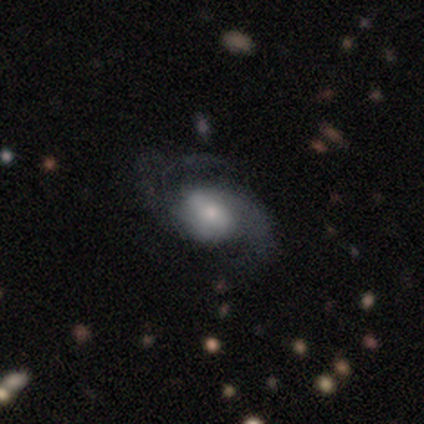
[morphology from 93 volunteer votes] Smooth or featured: featured or disk — 81% (smooth — 15%)
Edge-on disk: no — 97% (yes — 3%)
Bar: weak — 42% (no — 36%)
Spiral arms: yes — 93% (no — 7%)
Spiral winding: medium — 57% (loose — 34%)
Spiral arm count: 2 — 76% (3 — 13%)
Bulge size: small — 42% (moderate — 34%)
Merging: none — 58% (major disturbance — 20%)